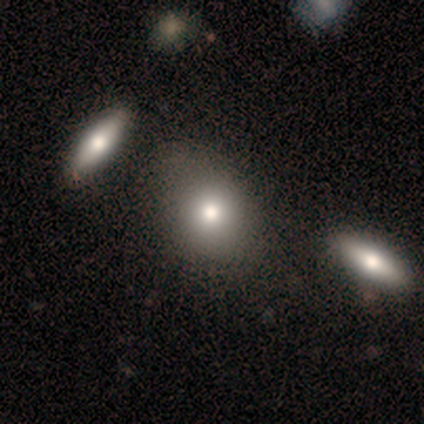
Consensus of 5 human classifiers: smooth 100%, featured or disk 0%, star or artifact 0%. Down the decision tree: how rounded — round (60%); merging — none (40%, tied with merger).